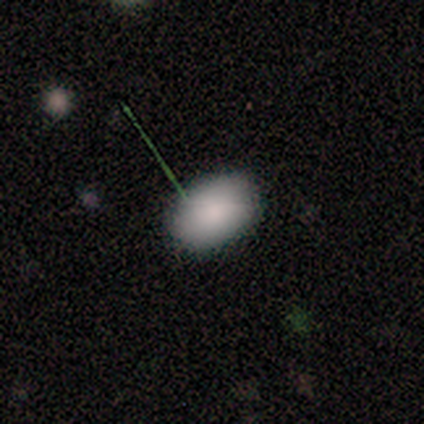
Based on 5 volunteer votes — This appears to be a smooth galaxy with no disk features (100%) that is in between round and cigar-shaped (100%). Merging: none (100%).